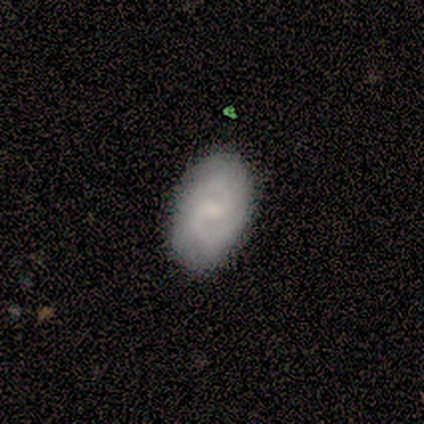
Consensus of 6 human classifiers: Smooth or featured?
  - featured or disk: 83% *
  - smooth: 17%
  - star or artifact: 0%
Edge-on disk?
  - no: 100% *
  - yes: 0%
Bar?
  - weak: 80% *
  - strong: 20%
  - no: 0%
Spiral arms?
  - yes: 100% *
  - no: 0%
Spiral winding?
  - tight: 40% * (tied)
  - medium: 40% * (tied)
  - loose: 20%
Spiral arm count?
  - 2: 100% *
  - 1: 0%
  - 3: 0%
  - 4: 0%
  - more than 4: 0%
  - can't tell: 0%
Bulge size?
  - none: 60% *
  - small: 40%
  - dominant: 0%
  - large: 0%
  - moderate: 0%
Merging?
  - none: 83% *
  - minor disturbance: 17%
  - major disturbance: 0%
  - merger: 0%